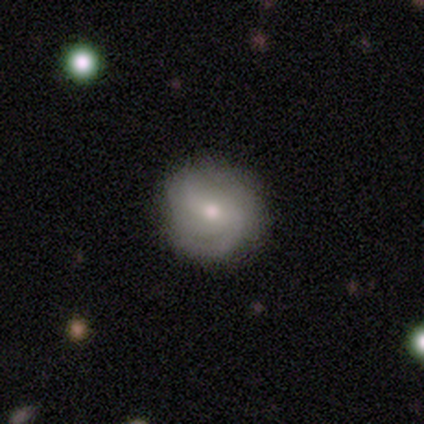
smooth_or_featured: featured or disk (p=0.75) [alt: star or artifact p=0.25]
disk_edge_on: no (p=1.00)
bar: no (p=1.00)
has_spiral_arms: no (p=0.67) [alt: yes p=0.33]
bulge_size: small (p=0.67) [alt: moderate p=0.33]
merging: none (p=0.67) [alt: minor disturbance p=0.33]